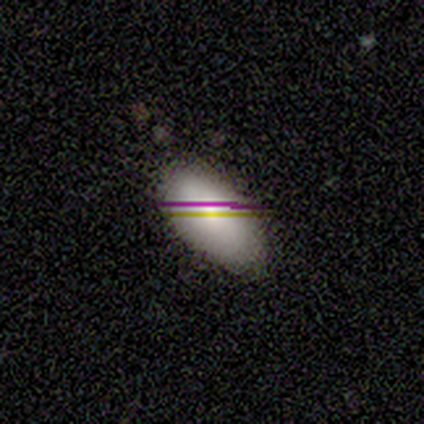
A smooth galaxy with no disk features (83%) that is in between round and cigar-shaped (100%).

Vote fractions:
- Smooth or featured? smooth: 83% / star or artifact: 17% / featured or disk: 0%
- How rounded? in between: 100% / round: 0% / cigar-shaped: 0%
- Merging? none: 60% / minor disturbance: 20% / merger: 20% / major disturbance: 0%